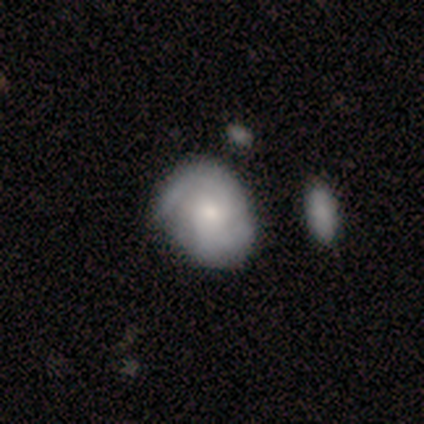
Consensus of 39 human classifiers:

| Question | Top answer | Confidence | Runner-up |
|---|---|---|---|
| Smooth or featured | featured or disk | 51% | smooth (38%) |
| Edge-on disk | no | 100% | — |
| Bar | no | 85% | weak (15%) |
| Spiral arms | yes | 90% | no (10%) |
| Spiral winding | medium | 56% | tight (44%) |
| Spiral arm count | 2 | 67% | can't tell (22%) |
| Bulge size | moderate | 50% | tied: small (50%) |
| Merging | none | 37% | minor disturbance (29%) |